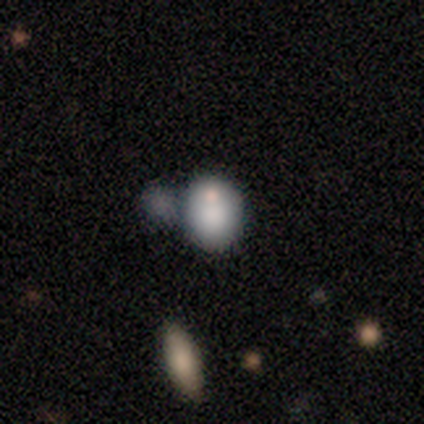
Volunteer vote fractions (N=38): Morphology: type=smooth (74%); roundness=in between (54%); merging=none (44%).